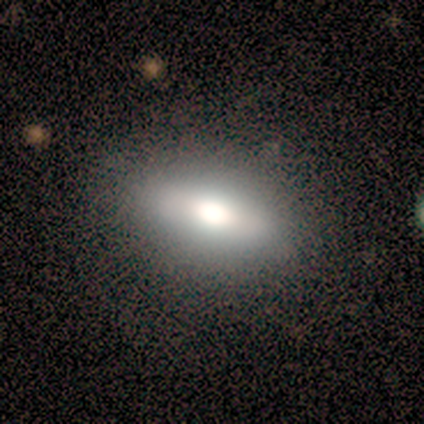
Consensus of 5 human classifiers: Overall: smooth (80%). How rounded: in between (75%). Merging: none (80%).